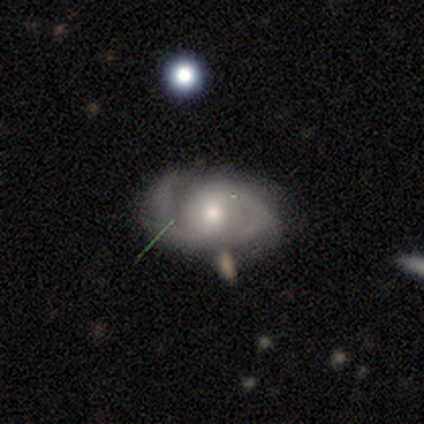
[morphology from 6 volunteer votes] Smooth or featured: featured or disk — 100%
Edge-on disk: no — 100%
Bar: weak — 83% (no — 17%)
Spiral arms: yes — 100%
Spiral winding: medium — 83% (tight — 17%)
Spiral arm count: 2 — 83% (3 — 17%)
Bulge size: moderate — 67% (large — 17%)
Merging: none — 83% (minor disturbance — 17%)